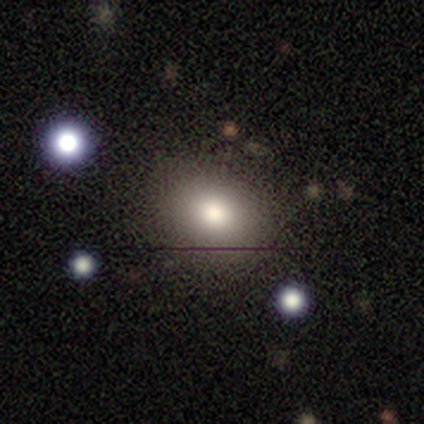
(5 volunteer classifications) smooth 80%, featured or disk 20%, star or artifact 0%. Down the decision tree: how rounded — round (100%); merging — none (100%).